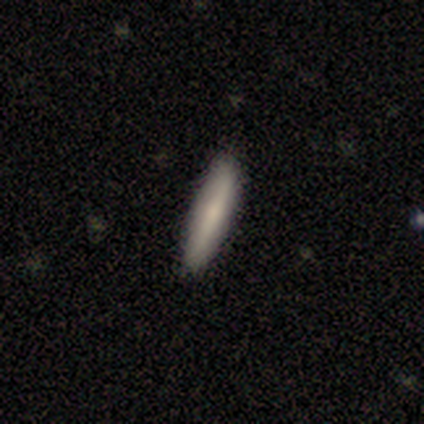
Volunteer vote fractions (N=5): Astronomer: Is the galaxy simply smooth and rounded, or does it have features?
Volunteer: featured or disk — 60% (runner-up: smooth, 40%).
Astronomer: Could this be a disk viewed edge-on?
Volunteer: yes — 67%.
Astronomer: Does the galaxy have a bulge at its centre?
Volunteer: none — 50%, tied with rounded at 50%.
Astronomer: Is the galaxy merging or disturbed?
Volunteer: none — 80%.